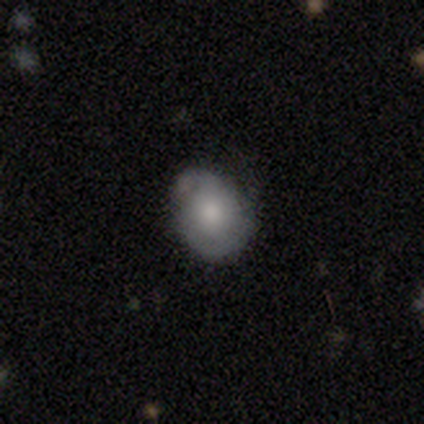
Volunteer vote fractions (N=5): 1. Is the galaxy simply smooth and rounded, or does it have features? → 60% smooth, 40% featured or disk, 0% star or artifact.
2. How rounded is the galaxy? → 100% round, 0% in between, 0% cigar-shaped.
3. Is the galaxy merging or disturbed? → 80% none, 20% minor disturbance, 0% major disturbance, 0% merger.